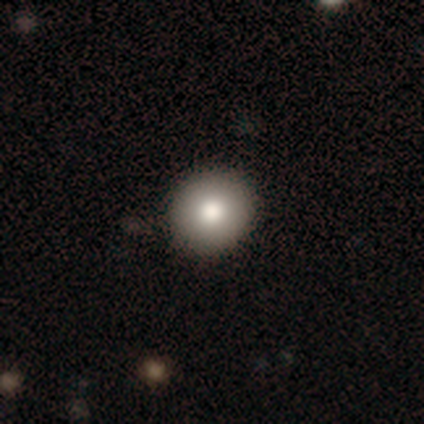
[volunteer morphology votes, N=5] Smooth or featured? 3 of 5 (60%) said smooth. How rounded? 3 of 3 (100%) said round. Merging? 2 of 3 (67%) said none.